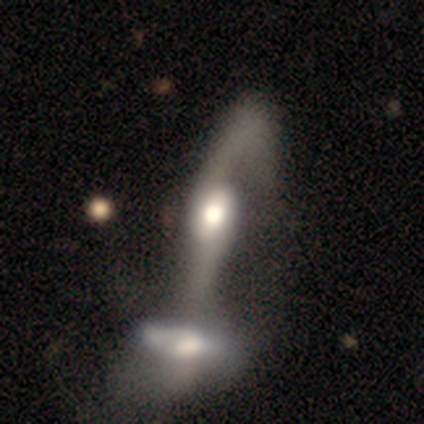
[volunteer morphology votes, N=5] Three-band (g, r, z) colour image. It shows a featured or disk galaxy (80%) with a strong bar (50%, tied with weak), 1 (50%, tied with 2) loose (75%) spiral arms (100%) and a moderate central bulge (50%). Merging: merger (100%).